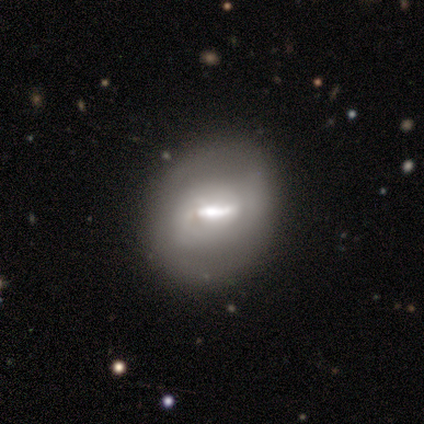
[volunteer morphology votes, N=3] Smooth or featured? 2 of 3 (67%) said featured or disk. Edge-on disk? 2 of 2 (100%) said no. Bar? 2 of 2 (100%) said weak. Spiral arms? 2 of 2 (100%) said no. Bulge size? 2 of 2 (100%) said moderate. Merging? 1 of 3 (33%, tied with minor disturbance and major disturbance) said none.